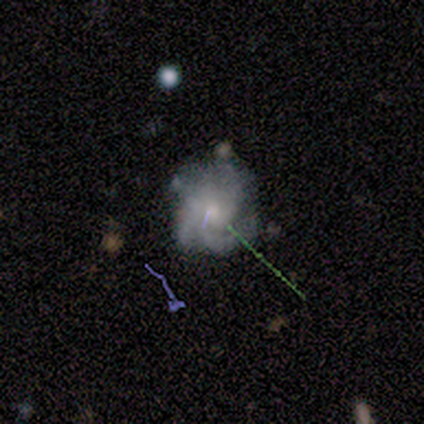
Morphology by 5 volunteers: type=smooth (60%); roundness=round (100%); merging=none (60%).